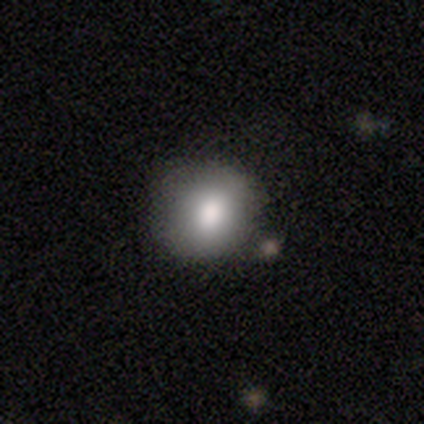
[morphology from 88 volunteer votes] Q: Smooth or featured?
A: smooth (82%); runner-up: featured or disk (12%)
Q: How rounded?
A: round (83%); runner-up: in between (17%)
Q: Merging?
A: none (76%); runner-up: minor disturbance (17%)